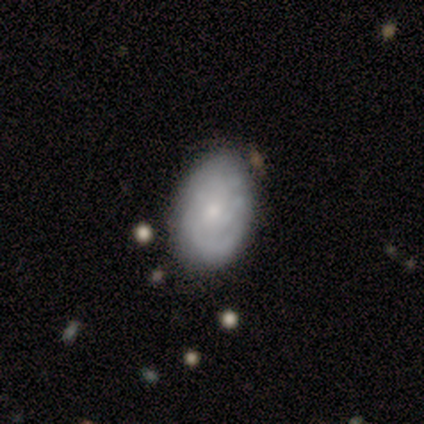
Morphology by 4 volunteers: Smooth or featured? 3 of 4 (75%) said featured or disk. Edge-on disk? 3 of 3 (100%) said no. Bar? 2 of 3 (67%) said no. Spiral arms? 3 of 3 (100%) said yes. Spiral winding? 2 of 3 (67%) said tight. Spiral arm count? 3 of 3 (100%) said can't tell. Bulge size? 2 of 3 (67%) said small. Merging? 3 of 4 (75%) said none.